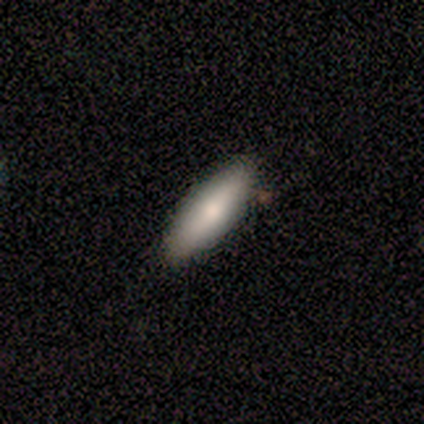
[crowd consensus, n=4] Q: Smooth or featured?
A: smooth (75%); runner-up: featured or disk (25%)
Q: How rounded?
A: in between (67%); runner-up: cigar-shaped (33%)
Q: Merging?
A: none (100%)